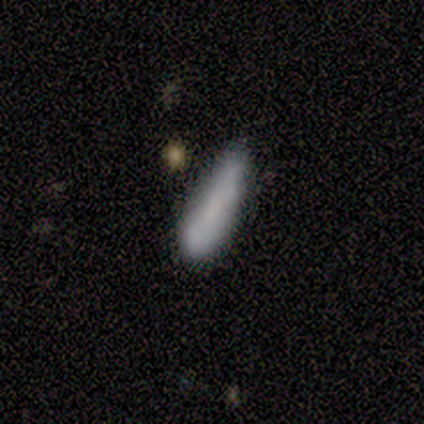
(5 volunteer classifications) Smooth or featured? smooth (80%)
How rounded? cigar-shaped (75%)
Merging? minor disturbance (75%)